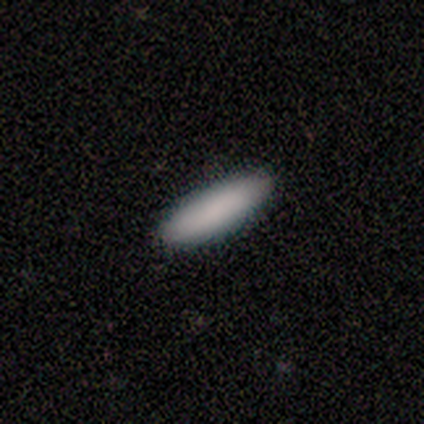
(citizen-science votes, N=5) Overall: smooth (80%). How rounded: in between (50%, tied with cigar-shaped). Merging: none (100%).